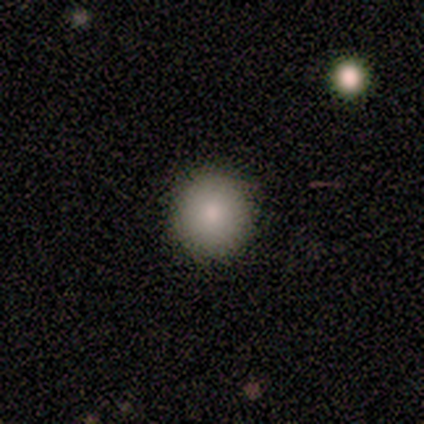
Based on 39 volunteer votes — This appears to be a smooth galaxy with no disk features (85%) that is round (91%). Merging: none (94%).